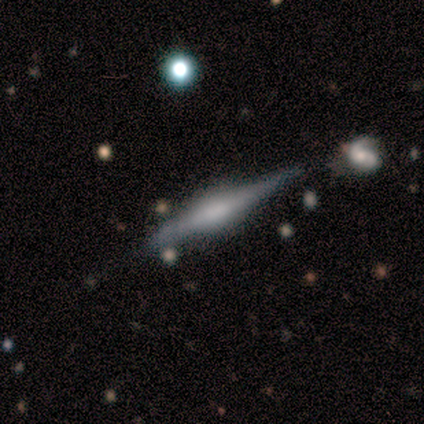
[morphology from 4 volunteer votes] This appears to be a featured or disk galaxy (100%) viewed edge-on (100%) with a rounded central bulge (75%). Merging: none (75%).